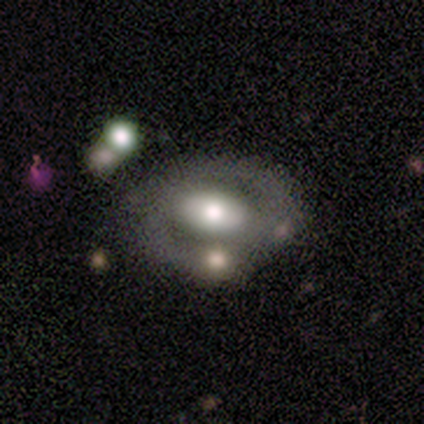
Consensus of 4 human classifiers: A featured or disk galaxy (100%) with no bar (50%), 2 (100%) medium (100%) spiral arms (50%, tied with no) and a moderate central bulge (50%).

Vote fractions:
- Smooth or featured? featured or disk: 100% / smooth: 0% / star or artifact: 0%
- Edge-on disk? no: 100% / yes: 0%
- Bar? no: 50% / strong: 25% / weak: 25%
- Spiral arms? yes: 50% (tied) / no: 50% (tied)
- Spiral winding? medium: 100% / tight: 0% / loose: 0%
- Spiral arm count? 2: 100% / 1: 0% / 3: 0% / 4: 0% / more than 4: 0% / can't tell: 0%
- Bulge size? moderate: 50% / dominant: 25% / large: 25% / small: 0% / none: 0%
- Merging? none: 50% (tied) / minor disturbance: 50% (tied) / major disturbance: 0% / merger: 0%